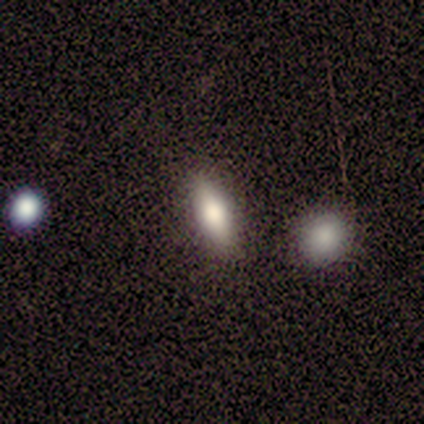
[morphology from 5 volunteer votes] Smooth or featured: smooth — 80% (star or artifact — 20%)
How rounded: in between — 50% (tied with cigar-shaped — 50%)
Merging: none — 100%